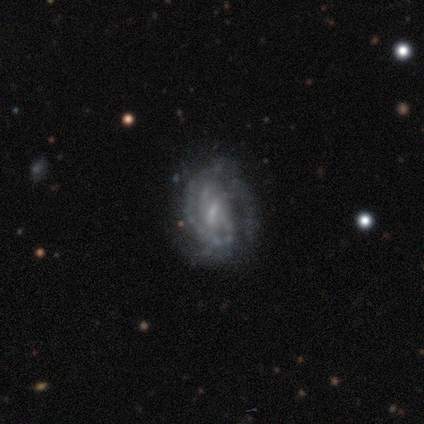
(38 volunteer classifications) This is clearly a featured or disk galaxy (87%). It is clearly not viewed edge-on (97%). Bar: possibly weak (59%). Spiral arm pattern: clearly yes (94%). Spiral arm count: marginally can't tell (27%). Spiral winding: possibly tight (57%). Central bulge: possibly small (56%). Merging: likely none (74%).